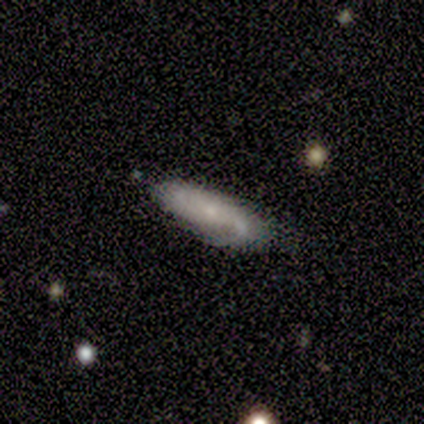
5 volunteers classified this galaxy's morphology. type=smooth (60%); roundness=in between (100%); merging=none (40%, tied with major disturbance).